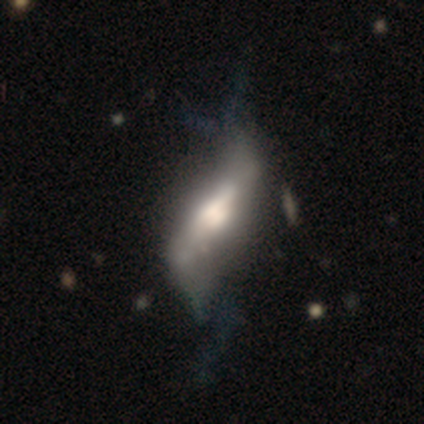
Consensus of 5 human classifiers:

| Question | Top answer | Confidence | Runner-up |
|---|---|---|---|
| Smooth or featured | featured or disk | 80% | star or artifact (20%) |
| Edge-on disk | yes | 50% | tied: no (50%) |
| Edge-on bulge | rounded | 100% | — |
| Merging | none | 75% | minor disturbance (25%) |